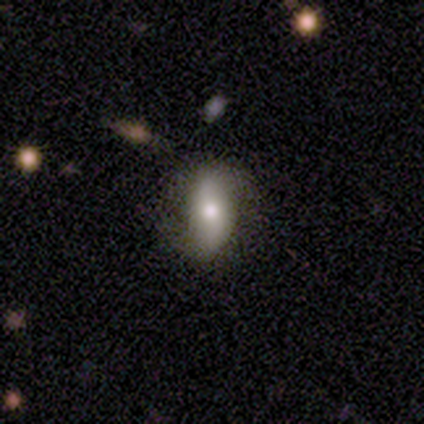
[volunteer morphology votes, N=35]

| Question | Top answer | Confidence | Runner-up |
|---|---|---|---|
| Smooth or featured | featured or disk | 46% | smooth (40%) |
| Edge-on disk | no | 81% | yes (19%) |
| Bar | strong | 38% | tied: weak (38%) |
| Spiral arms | yes | 62% | no (38%) |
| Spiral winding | medium | 50% | loose (38%) |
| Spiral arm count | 2 | 88% | can't tell (12%) |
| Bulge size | moderate | 69% | large (15%) |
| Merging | none | 70% | minor disturbance (30%) |